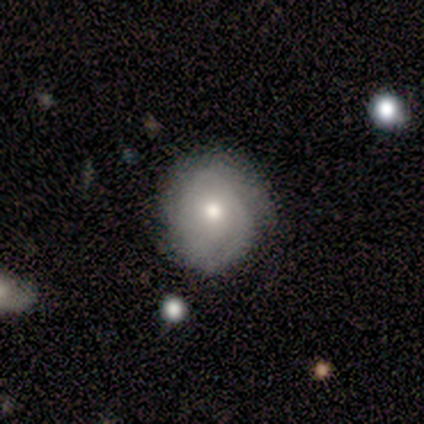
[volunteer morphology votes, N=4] Smooth or featured? 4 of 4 (100%) said featured or disk. Edge-on disk? 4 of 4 (100%) said no. Bar? 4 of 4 (100%) said no. Spiral arms? 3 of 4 (75%) said yes. Spiral winding? 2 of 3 (67%) said medium. Spiral arm count? 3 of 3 (100%) said can't tell. Bulge size? 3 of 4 (75%) said moderate. Merging? 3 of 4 (75%) said none.